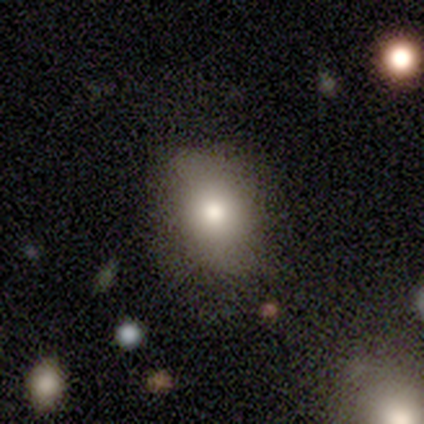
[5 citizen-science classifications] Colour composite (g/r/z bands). It shows a smooth galaxy with no disk features (100%) that is in between round and cigar-shaped (60%). Merging: none (80%).